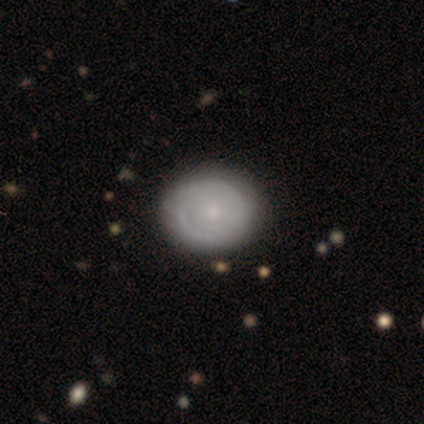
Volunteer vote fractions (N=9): Smooth or featured? featured or disk (56%)
Edge-on disk? no (100%)
Bar? no (80%)
Spiral arms? yes (80%)
Spiral winding? tight (100%)
Spiral arm count? can't tell (50%)
Bulge size? small (100%)
Merging? none (88%)